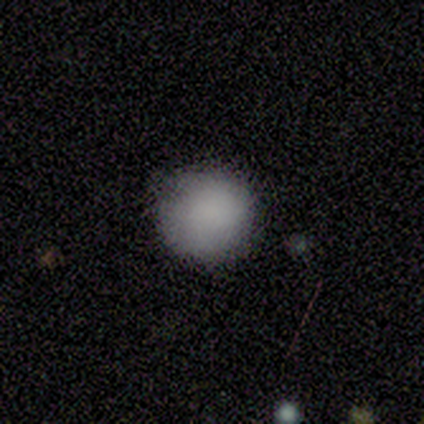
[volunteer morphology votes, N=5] A smooth galaxy with no disk features (100%) that is round (100%).

Vote fractions:
- Smooth or featured? smooth: 100% / featured or disk: 0% / star or artifact: 0%
- How rounded? round: 100% / in between: 0% / cigar-shaped: 0%
- Merging? none: 100% / minor disturbance: 0% / major disturbance: 0% / merger: 0%